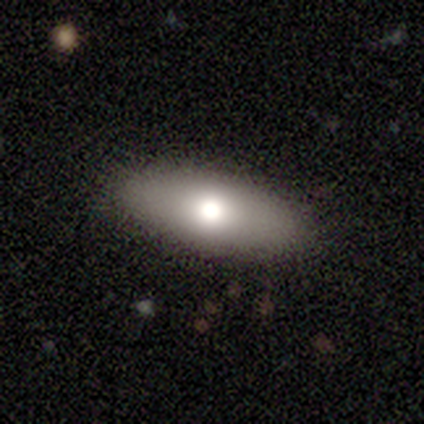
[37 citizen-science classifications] smooth-or-featured: smooth: 73% | featured or disk: 14% | star or artifact: 14%
  how-rounded: in between: 81% | cigar-shaped: 15% | round: 4%
  merging: none: 84% | minor disturbance: 6% | major disturbance: 6% | merger: 3%